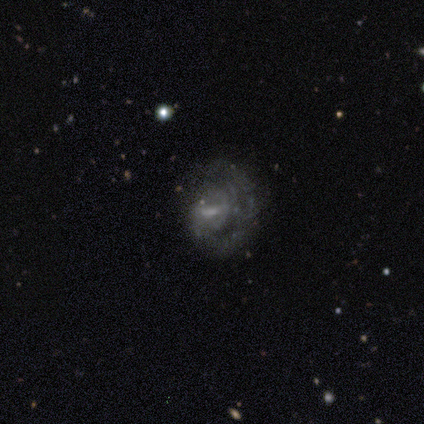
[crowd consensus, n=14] smooth_or_featured: featured or disk (p=0.71) [alt: smooth p=0.21]
disk_edge_on: no (p=1.00)
bar: weak (p=0.50) [alt: no p=0.30]
has_spiral_arms: yes (p=1.00)
spiral_winding: tight (p=0.60) [alt: medium p=0.20]
spiral_arm_count: can't tell (p=0.50) [alt: 1 p=0.30]
bulge_size: small (p=0.70) [alt: moderate p=0.20]
merging: none (p=0.62) [alt: minor disturbance p=0.23]